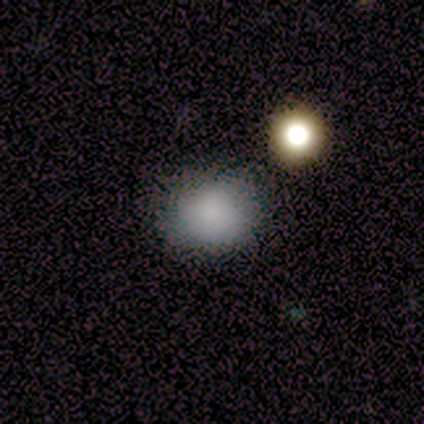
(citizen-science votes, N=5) A smooth galaxy with no disk features (100%) that is in between round and cigar-shaped (60%). Merging: none (40%).